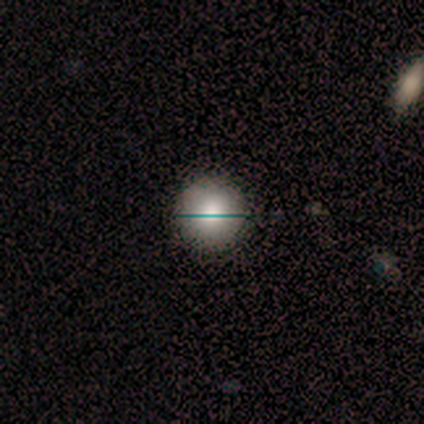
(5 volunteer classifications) Q: Smooth or featured?
A: smooth (60%); runner-up: featured or disk (20%)
Q: How rounded?
A: round (100%)
Q: Merging?
A: none (75%); runner-up: minor disturbance (25%)